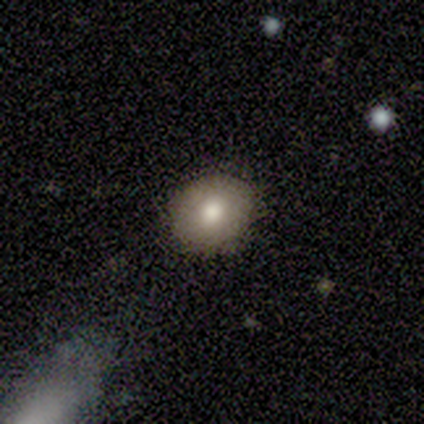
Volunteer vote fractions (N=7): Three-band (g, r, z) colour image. It shows a smooth galaxy with no disk features (86%) that is round (67%). Merging: none (100%).